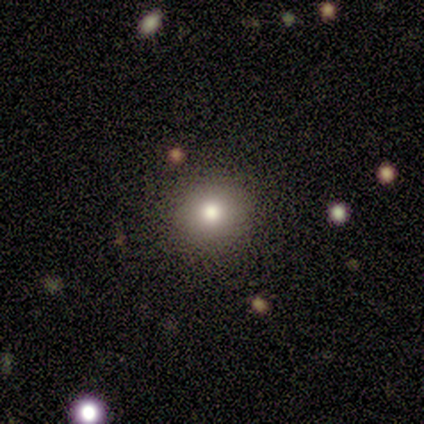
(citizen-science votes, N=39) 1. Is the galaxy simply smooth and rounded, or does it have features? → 74% smooth, 15% featured or disk, 10% star or artifact.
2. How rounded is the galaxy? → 93% round, 7% in between, 0% cigar-shaped.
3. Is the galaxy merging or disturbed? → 91% none, 9% minor disturbance, 0% major disturbance, 0% merger.